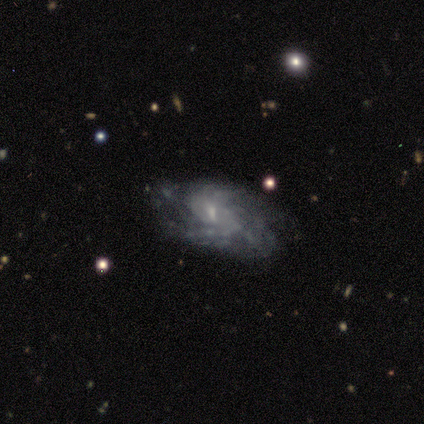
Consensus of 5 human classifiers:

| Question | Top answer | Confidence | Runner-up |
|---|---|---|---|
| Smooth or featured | featured or disk | 100% | — |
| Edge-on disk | no | 100% | — |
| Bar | strong | 40% | tied: no (40%) |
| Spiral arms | yes | 80% | no (20%) |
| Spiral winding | medium | 75% | tight (25%) |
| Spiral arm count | can't tell | 75% | more than 4 (25%) |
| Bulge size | small | 60% | moderate (20%) |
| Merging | none | 80% | minor disturbance (20%) |